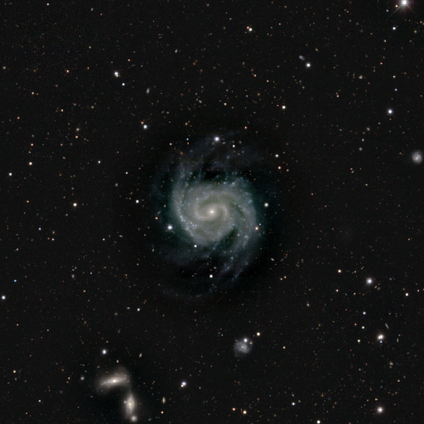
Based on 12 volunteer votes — Q: Smooth or featured?
A: featured or disk (100%)
Q: Edge-on disk?
A: no (92%); runner-up: yes (8%)
Q: Bar?
A: no (73%); runner-up: strong (27%)
Q: Spiral arms?
A: yes (100%)
Q: Spiral winding?
A: tight (64%); runner-up: medium (36%)
Q: Spiral arm count?
A: 2 (64%); runner-up: 3 (27%)
Q: Bulge size?
A: small (100%)
Q: Merging?
A: none (75%); runner-up: minor disturbance (25%)